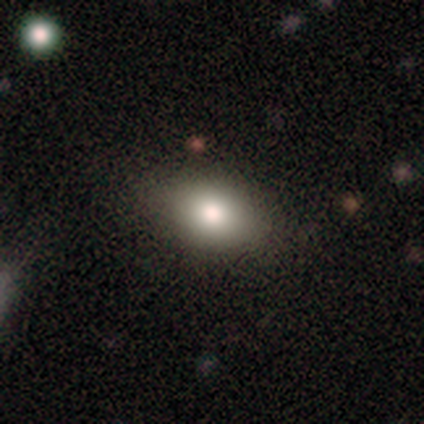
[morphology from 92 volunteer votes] smooth_or_featured: smooth (p=0.85) [alt: featured or disk p=0.09]
how_rounded: in between (p=0.87) [alt: round p=0.08]
merging: none (p=0.81) [alt: minor disturbance p=0.12]